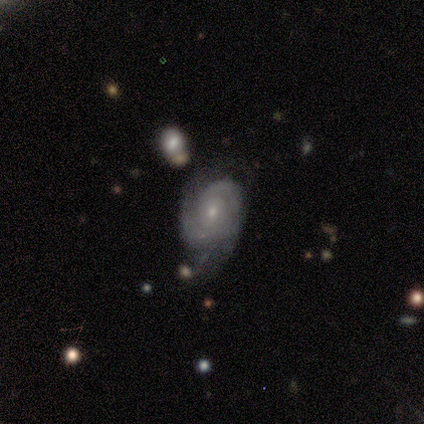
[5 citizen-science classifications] Smooth or featured?
  - featured or disk: 80% *
  - smooth: 20%
  - star or artifact: 0%
Edge-on disk?
  - no: 100% *
  - yes: 0%
Bar?
  - no: 75% *
  - weak: 25%
  - strong: 0%
Spiral arms?
  - yes: 100% *
  - no: 0%
Spiral winding?
  - medium: 75% *
  - tight: 25%
  - loose: 0%
Spiral arm count?
  - can't tell: 75% *
  - 1: 25%
  - 2: 0%
  - 3: 0%
  - 4: 0%
  - more than 4: 0%
Bulge size?
  - small: 100% *
  - dominant: 0%
  - large: 0%
  - moderate: 0%
  - none: 0%
Merging?
  - none: 60% *
  - minor disturbance: 40%
  - major disturbance: 0%
  - merger: 0%